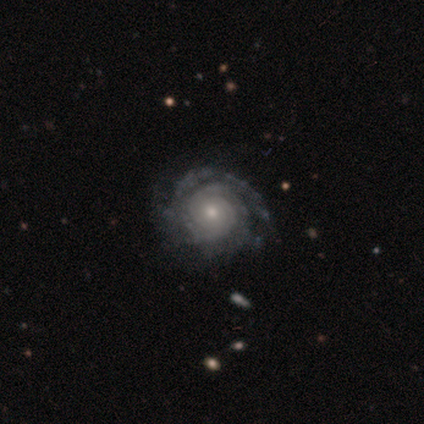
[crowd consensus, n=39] This is clearly a featured or disk galaxy (95%). It is clearly not viewed edge-on (100%). Bar: clearly no (84%). Spiral arm pattern: clearly yes (97%). Spiral arm count: marginally can't tell (39%). Spiral winding: clearly tight (92%). Central bulge: possibly moderate (51%). Merging: possibly none (51%).